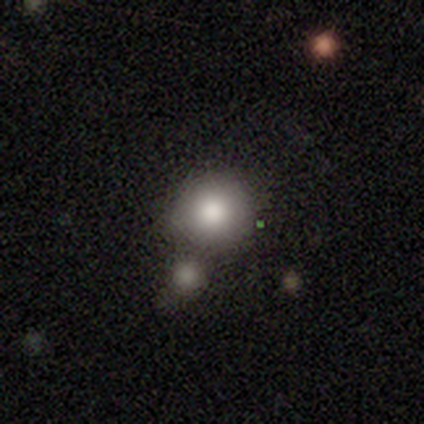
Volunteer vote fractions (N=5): Smooth or featured: smooth — 60% (star or artifact — 40%)
How rounded: round — 100%
Merging: none — 33% (tied with minor disturbance — 33%; merger — 33%)